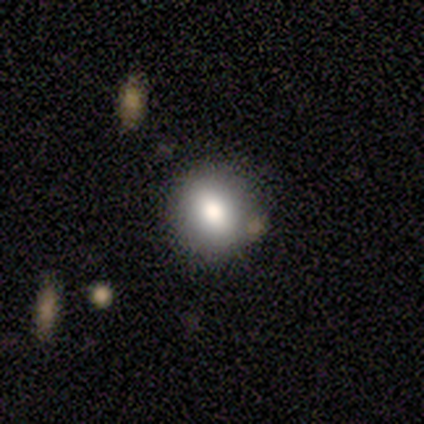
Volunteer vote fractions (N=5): Overall: smooth (100%). How rounded: round (80%). Merging: none (80%).